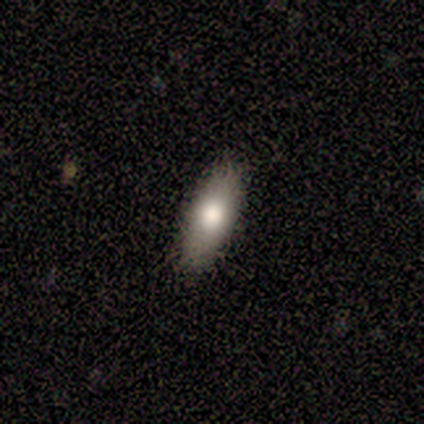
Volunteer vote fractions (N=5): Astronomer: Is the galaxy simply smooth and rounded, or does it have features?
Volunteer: smooth — 60% (runner-up: featured or disk, 40%).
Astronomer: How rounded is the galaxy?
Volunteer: cigar-shaped — 67%.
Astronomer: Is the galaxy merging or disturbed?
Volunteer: none — 100%.